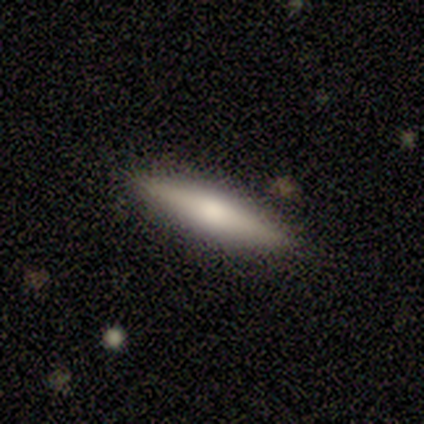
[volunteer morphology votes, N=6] smooth 50% (tied), featured or disk 50% (tied), star or artifact 0%. Down the decision tree: how rounded — cigar-shaped (67%); merging — none (100%).